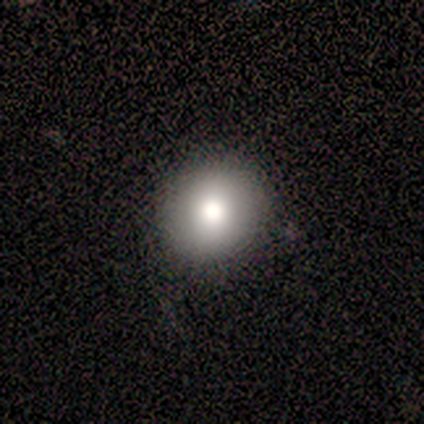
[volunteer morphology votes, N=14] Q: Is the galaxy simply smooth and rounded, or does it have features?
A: smooth — 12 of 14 (86%).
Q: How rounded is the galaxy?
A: round — 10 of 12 (83%).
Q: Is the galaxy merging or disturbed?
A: none — 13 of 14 (93%).